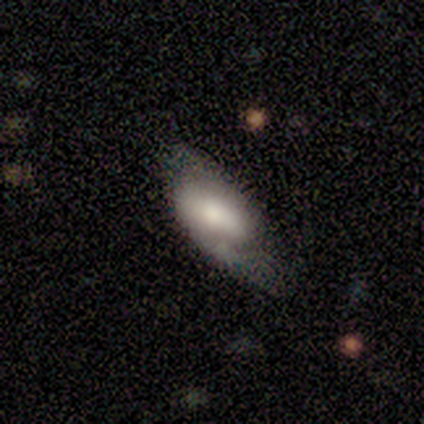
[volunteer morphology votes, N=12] Overall: featured or disk (58%; smooth 42%). Edge-on disk: no (100%). Bar: strong (43%, tied with no). Spiral arms: no (57%; yes 43%). Bulge size: moderate (57%). Merging: minor disturbance (50%; none 33%).